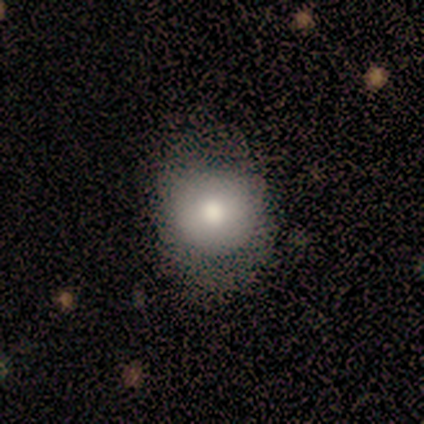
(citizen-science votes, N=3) smooth_or_featured: smooth (p=1.00)
how_rounded: round (p=1.00)
merging: none (p=1.00)